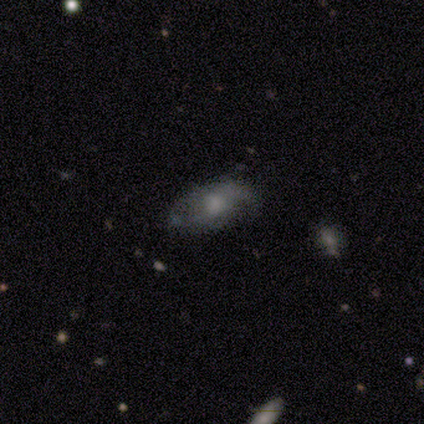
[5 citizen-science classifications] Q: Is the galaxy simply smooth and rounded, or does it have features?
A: featured or disk — 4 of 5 (80%).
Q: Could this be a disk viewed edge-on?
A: no — 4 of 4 (100%).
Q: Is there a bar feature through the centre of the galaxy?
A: weak — 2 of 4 (50%, tied with no).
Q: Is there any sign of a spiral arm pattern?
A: yes — 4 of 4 (100%).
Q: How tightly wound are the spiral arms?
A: medium — 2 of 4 (50%).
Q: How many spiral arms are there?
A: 2 — 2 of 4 (50%, tied with can't tell).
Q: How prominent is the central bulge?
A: moderate — 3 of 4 (75%).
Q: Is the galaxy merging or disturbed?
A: none — 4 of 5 (80%).